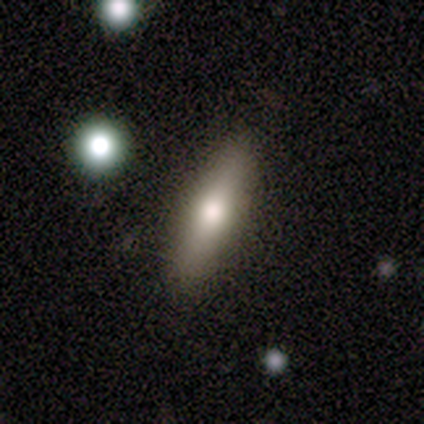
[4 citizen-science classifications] Morphology: type=smooth (50%, tied with featured or disk); roundness=in between (50%, tied with cigar-shaped); merging=none (50%, tied with minor disturbance).